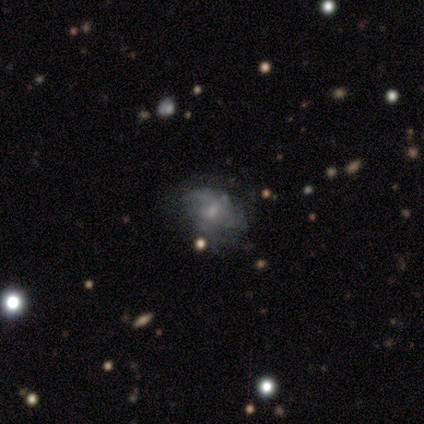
Smooth or featured?
  - featured or disk: 100% *
  - smooth: 0%
  - star or artifact: 0%
Edge-on disk?
  - no: 100% *
  - yes: 0%
Bar?
  - weak: 67% *
  - no: 33%
  - strong: 0%
Spiral arms?
  - yes: 67% *
  - no: 33%
Spiral winding?
  - loose: 100% *
  - tight: 0%
  - medium: 0%
Spiral arm count?
  - 4: 50% * (tied)
  - can't tell: 50% * (tied)
  - 1: 0%
  - 2: 0%
  - 3: 0%
  - more than 4: 0%
Bulge size?
  - moderate: 67% *
  - none: 33%
  - dominant: 0%
  - large: 0%
  - small: 0%
Merging?
  - none: 33% * (tied)
  - minor disturbance: 33% * (tied)
  - major disturbance: 33% * (tied)
  - merger: 0%